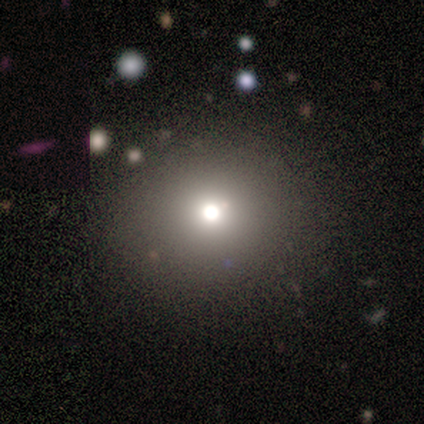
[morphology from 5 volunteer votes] star or artifact 60%, smooth 20%, featured or disk 20%.